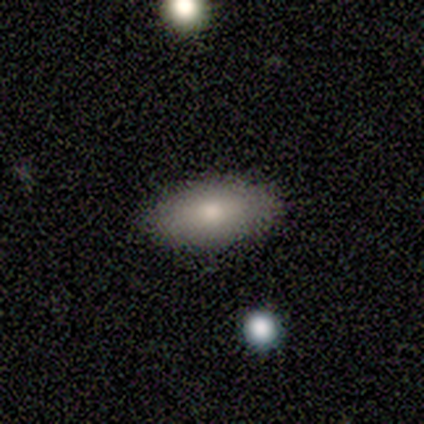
Smooth or featured: smooth — 100%
How rounded: in between — 100%
Merging: none — 100%